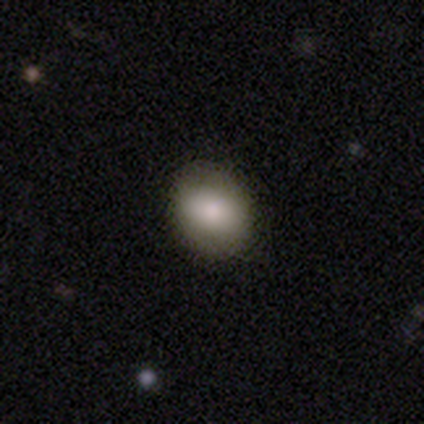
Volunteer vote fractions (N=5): Q: Smooth or featured?
A: smooth (100%)
Q: How rounded?
A: in between (60%); runner-up: round (40%)
Q: Merging?
A: none (100%)